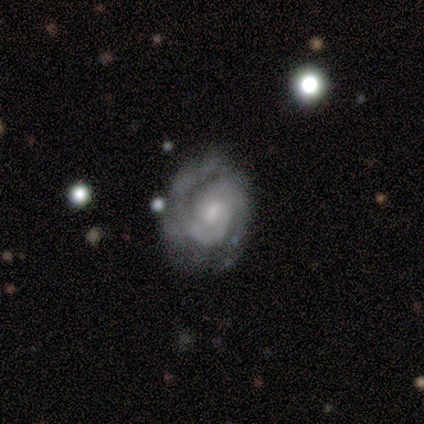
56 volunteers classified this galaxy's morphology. Volunteers were most divided on "bulge size": moderate: 52%, small: 31%, none: 12%, large: 6%, dominant: 0%. More confident: edge-on disk — no (100%); spiral arms — yes (98%); smooth or featured — featured or disk (93%); spiral winding — tight (71%); spiral arm count — 2 (69%); merging — none (62%); bar — no (58%).